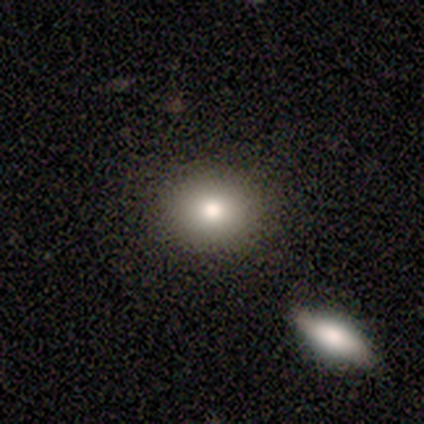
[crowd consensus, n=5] This appears to be a smooth galaxy with no disk features (80%) that is round (75%). Merging: none (75%).